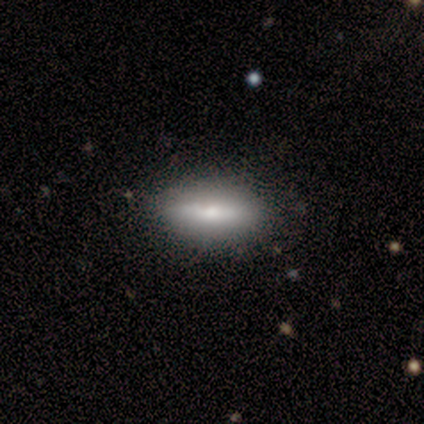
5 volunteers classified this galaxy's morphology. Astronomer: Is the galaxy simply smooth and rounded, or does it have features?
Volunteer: smooth — 80%.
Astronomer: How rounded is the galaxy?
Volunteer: in between — 50%, tied with cigar-shaped at 50%.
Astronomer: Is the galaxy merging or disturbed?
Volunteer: none — 100%.